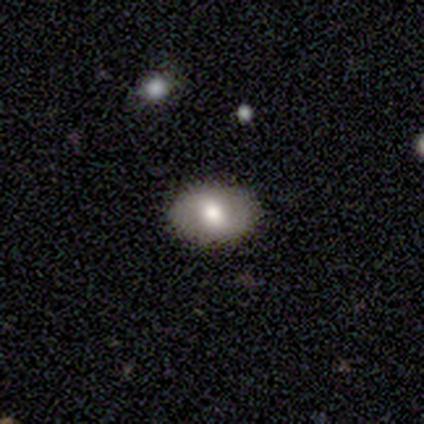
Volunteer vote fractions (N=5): Smooth or featured? 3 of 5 (60%) said featured or disk. Edge-on disk? 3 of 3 (100%) said no. Bar? 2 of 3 (67%) said no. Spiral arms? 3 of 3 (100%) said no. Bulge size? 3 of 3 (100%) said moderate. Merging? 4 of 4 (100%) said none.